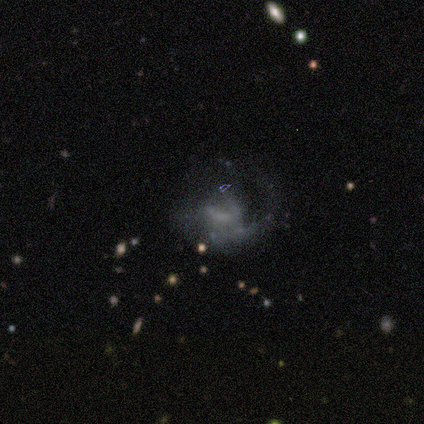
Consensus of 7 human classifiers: This appears to be a featured or disk galaxy (100%) with a weak bar (50%, tied with no), loose (75%) spiral arms (67%) and no central bulge (67%). Merging: major disturbance (71%).